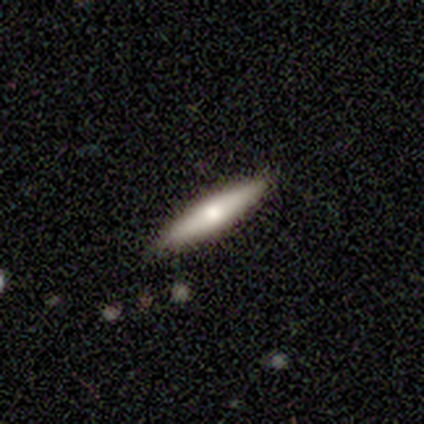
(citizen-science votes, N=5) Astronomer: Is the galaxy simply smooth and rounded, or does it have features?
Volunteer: smooth — 40%, tied with featured or disk at 40%.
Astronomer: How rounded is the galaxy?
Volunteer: cigar-shaped — 100%.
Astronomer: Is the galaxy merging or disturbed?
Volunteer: none — 50%.